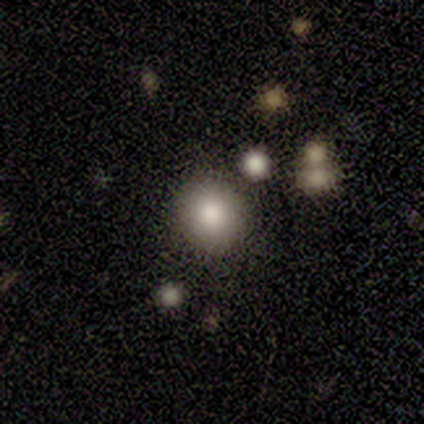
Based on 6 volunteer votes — Volunteers were most divided on "smooth or featured": smooth: 83%, featured or disk: 17%, star or artifact: 0%. More confident: how rounded — round (100%); merging — none (83%).